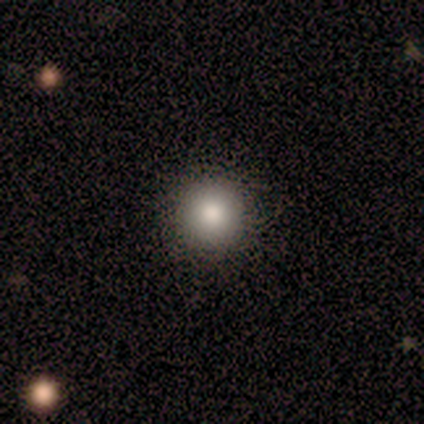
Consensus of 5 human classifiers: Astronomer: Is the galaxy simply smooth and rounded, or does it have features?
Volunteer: smooth — 80%.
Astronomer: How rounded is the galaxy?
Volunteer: round — 100%.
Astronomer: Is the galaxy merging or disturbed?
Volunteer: none — 100%.